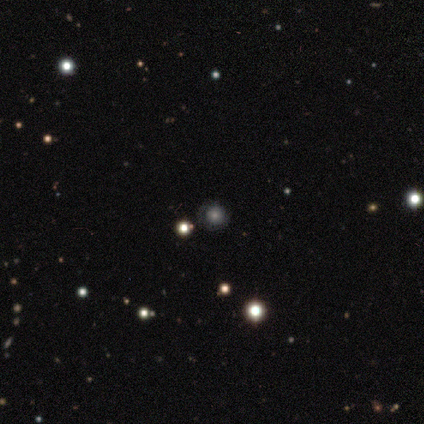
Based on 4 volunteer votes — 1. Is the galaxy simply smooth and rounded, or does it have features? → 50% featured or disk, 25% smooth, 25% star or artifact.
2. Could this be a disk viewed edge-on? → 100% no, 0% yes.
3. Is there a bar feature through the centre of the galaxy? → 100% no, 0% strong, 0% weak.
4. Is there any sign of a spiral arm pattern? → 50% yes (tied), 50% no (tied).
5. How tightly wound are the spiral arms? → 100% tight, 0% medium, 0% loose.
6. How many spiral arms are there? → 100% can't tell, 0% 1, 0% 2, 0% 3, 0% 4, 0% more than 4.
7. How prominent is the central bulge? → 50% dominant (tied), 50% moderate (tied), 0% large, 0% small, 0% none.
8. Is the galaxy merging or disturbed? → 100% none, 0% minor disturbance, 0% major disturbance, 0% merger.